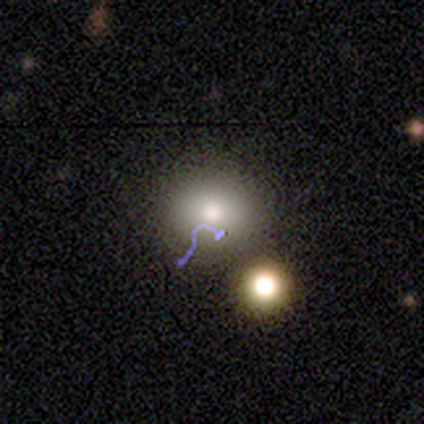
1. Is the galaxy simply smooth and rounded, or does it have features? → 69% smooth, 19% star or artifact, 12% featured or disk.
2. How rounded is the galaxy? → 91% round, 9% in between, 0% cigar-shaped.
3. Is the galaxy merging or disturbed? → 62% none, 15% major disturbance, 15% merger, 8% minor disturbance.